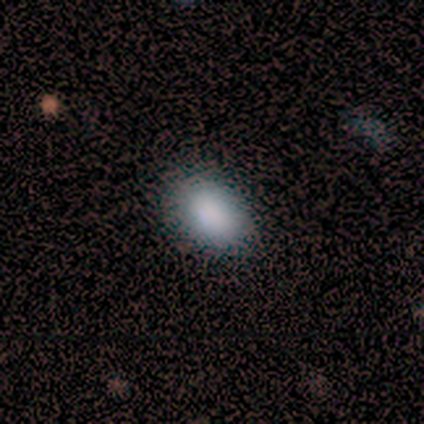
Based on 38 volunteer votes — This appears to be a smooth galaxy with no disk features (82%) that is in between round and cigar-shaped (90%). Merging: none (88%).